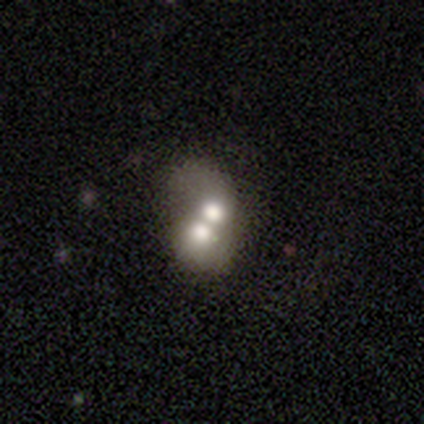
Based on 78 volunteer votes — Overall: smooth (50%; featured or disk 38%). How rounded: in between (59%; round 41%). Merging: merger (59%).